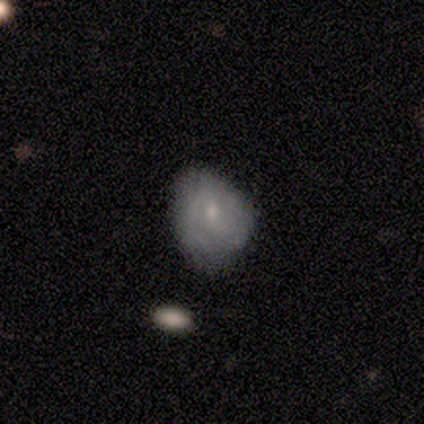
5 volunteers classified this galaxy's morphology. Volunteers were most divided on "merging": none: 40%, minor disturbance: 20%, major disturbance: 20%, merger: 20%. More confident: smooth or featured — smooth (80%); how rounded — in between (75%).